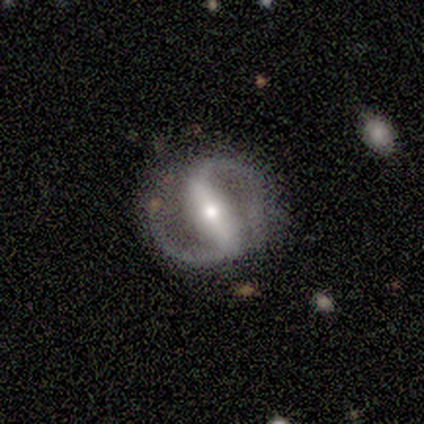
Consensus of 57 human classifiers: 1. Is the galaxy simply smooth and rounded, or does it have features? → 95% featured or disk, 4% smooth, 2% star or artifact.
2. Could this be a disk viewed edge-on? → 96% no, 4% yes.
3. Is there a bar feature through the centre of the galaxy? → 81% strong, 12% weak, 8% no.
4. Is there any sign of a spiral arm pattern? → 94% yes, 6% no.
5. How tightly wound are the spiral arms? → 61% medium, 27% tight, 12% loose.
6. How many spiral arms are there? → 100% 2, 0% 1, 0% 3, 0% 4, 0% more than 4, 0% can't tell.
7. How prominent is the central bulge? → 67% moderate, 25% small, 8% large, 0% dominant, 0% none.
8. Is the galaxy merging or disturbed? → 73% none, 18% minor disturbance, 7% major disturbance, 2% merger.